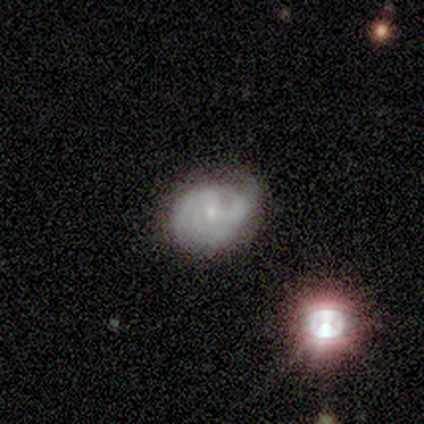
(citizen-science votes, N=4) smooth_or_featured: featured or disk (p=0.75) [alt: smooth p=0.25]
disk_edge_on: no (p=1.00)
bar: no (p=0.67) [alt: weak p=0.33]
has_spiral_arms: yes (p=1.00)
spiral_winding: medium (p=0.67) [alt: tight p=0.33]
spiral_arm_count: 2 (p=0.67) [alt: 3 p=0.33]
bulge_size: small (p=0.67) [alt: none p=0.33]
merging: none (p=0.75) [alt: minor disturbance p=0.25]